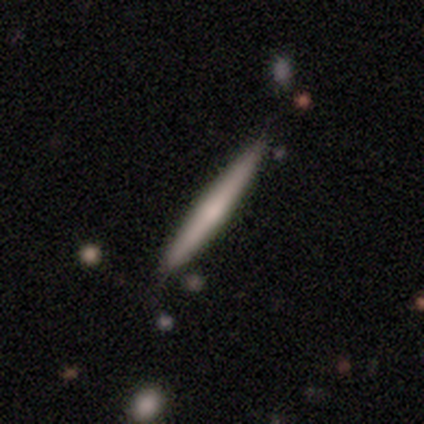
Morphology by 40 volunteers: Smooth or featured: smooth — 50% (tied with featured or disk — 50%)
How rounded: cigar-shaped — 90% (in between — 10%)
Merging: none — 70% (minor disturbance — 10%)